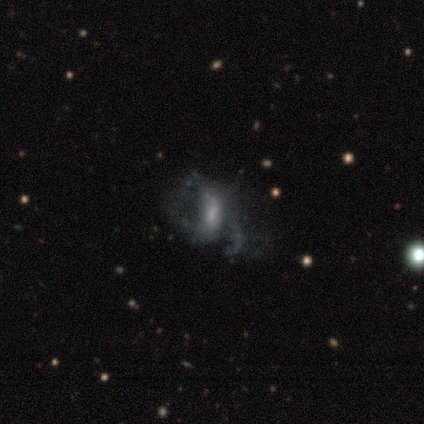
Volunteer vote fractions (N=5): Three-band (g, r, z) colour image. It shows a featured or disk galaxy (60%) with a strong bar (33%, tied with weak and no), no spiral arms (67%) and no central bulge (67%). Merging: major disturbance (60%).